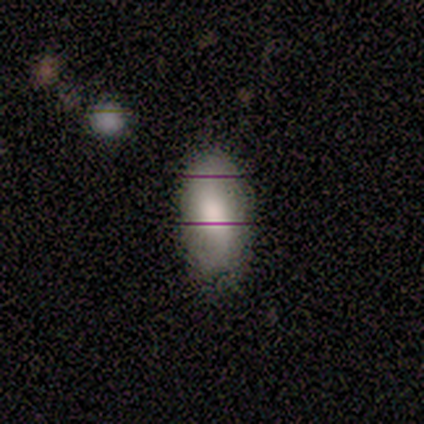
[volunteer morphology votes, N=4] smooth_or_featured: smooth (p=0.75) [alt: star or artifact p=0.25]
how_rounded: in between (p=1.00)
merging: none (p=0.67) [alt: minor disturbance p=0.33]